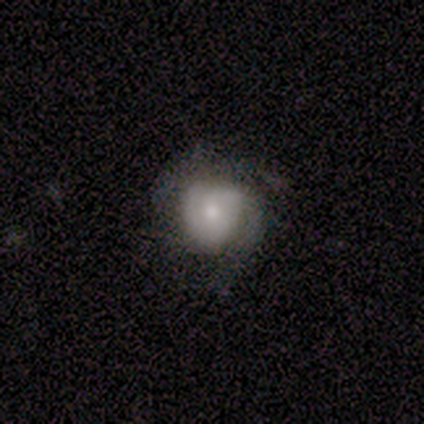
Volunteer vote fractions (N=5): This is clearly a smooth galaxy (80%). How rounded: likely round (75%). Merging: clearly none (80%).